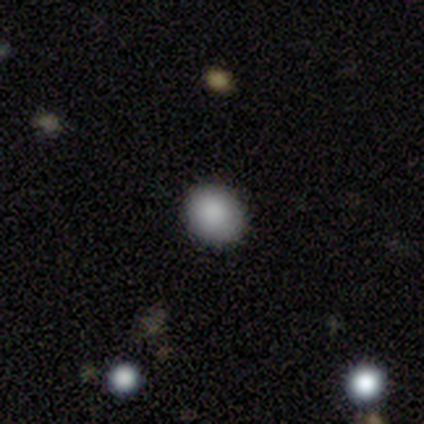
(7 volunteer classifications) smooth 100%, featured or disk 0%, star or artifact 0%. Down the decision tree: how rounded — round (71%); merging — none (86%).